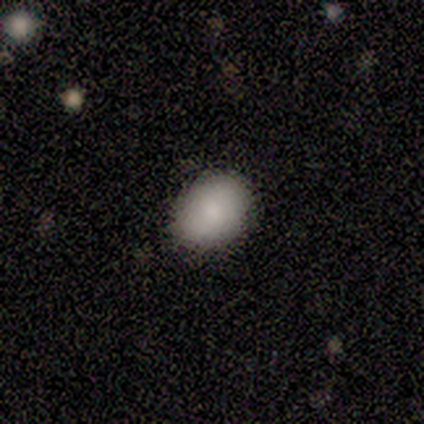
Overall: smooth (100%). How rounded: round (60%; in between 40%). Merging: none (80%).